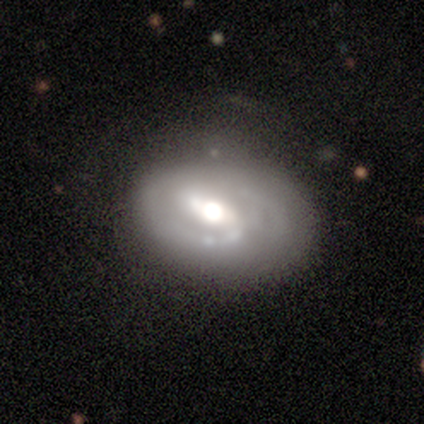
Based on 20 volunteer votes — Smooth or featured? 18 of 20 (90%) said featured or disk. Edge-on disk? 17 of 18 (94%) said no. Bar? 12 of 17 (71%) said weak. Spiral arms? 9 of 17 (53%) said yes. Spiral winding? 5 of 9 (56%) said medium. Spiral arm count? 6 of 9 (67%) said 2. Bulge size? 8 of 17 (47%, tied with moderate) said large. Merging? 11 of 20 (55%) said none.